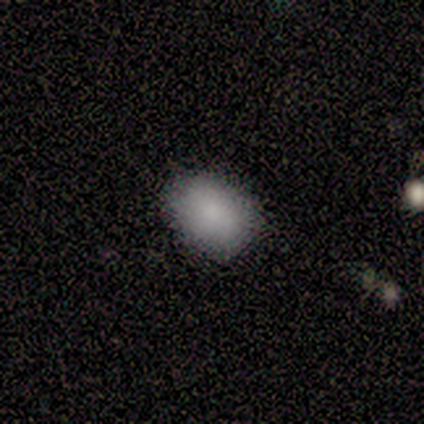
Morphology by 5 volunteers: smooth-or-featured: smooth: 100% | featured or disk: 0% | star or artifact: 0%
  how-rounded: in between: 80% | round: 20% | cigar-shaped: 0%
  merging: none: 100% | minor disturbance: 0% | major disturbance: 0% | merger: 0%